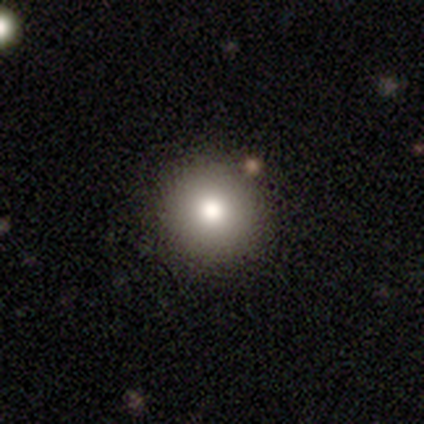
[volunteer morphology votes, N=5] A smooth galaxy with no disk features (80%) that is round (100%). Merging: none (100%).